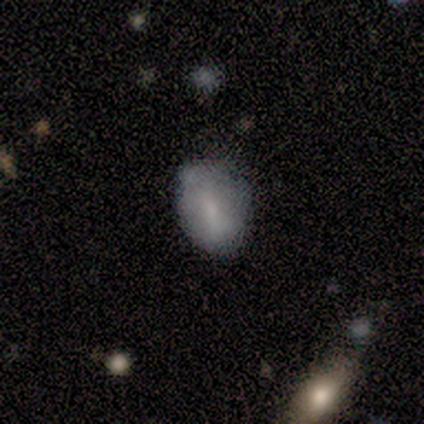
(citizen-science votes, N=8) Morphology: type=smooth (88%); roundness=in between (71%); merging=none (62%).